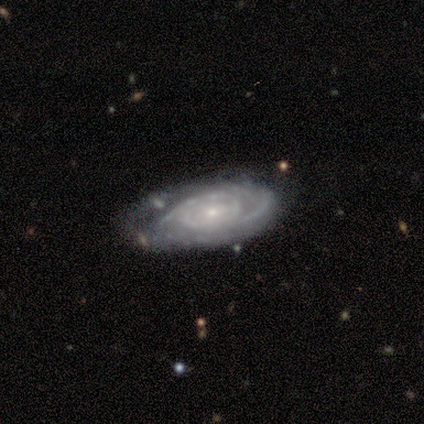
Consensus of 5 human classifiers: A featured or disk galaxy (100%) with no bar (75%), 2 (33%, tied with 3 and can't tell) tight (100%) spiral arms (75%) and a small central bulge (100%). Merging: none (60%).